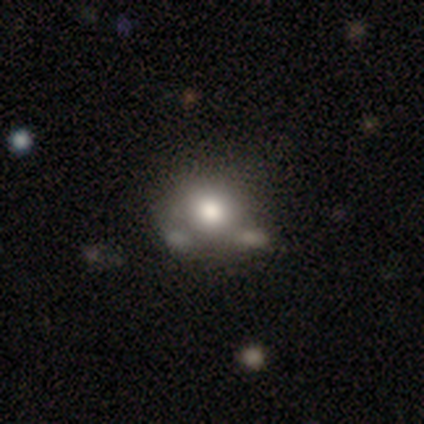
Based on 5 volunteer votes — Smooth or featured? smooth (80%)
How rounded? round (100%)
Merging? none (60%)